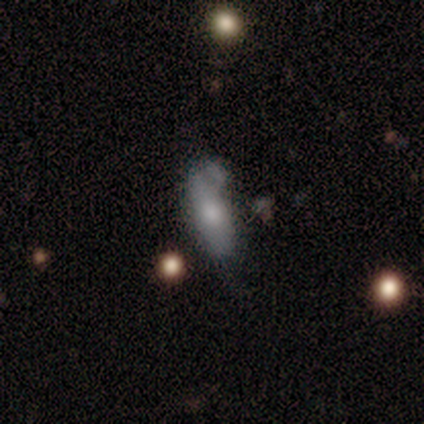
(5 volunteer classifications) Smooth or featured: smooth — 60% (featured or disk — 40%)
How rounded: in between — 67% (cigar-shaped — 33%)
Merging: none — 40% (tied with minor disturbance — 40%)